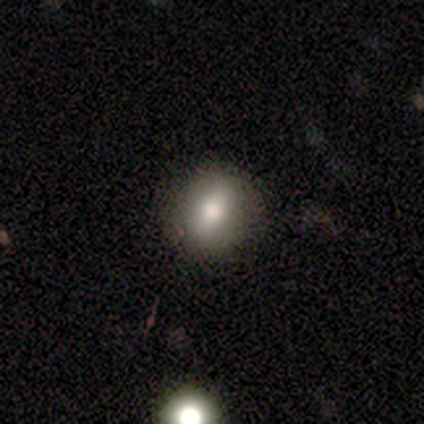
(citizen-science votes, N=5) smooth 80%, featured or disk 20%, star or artifact 0%. Down the decision tree: how rounded — round (75%); merging — none (100%).